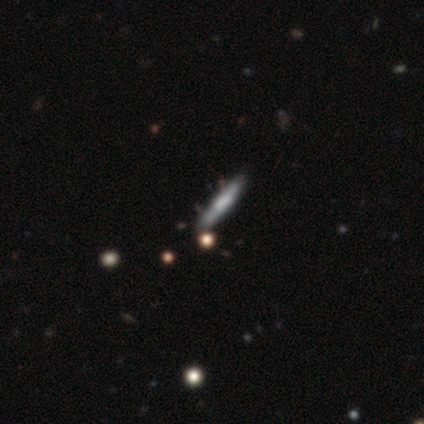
This appears to be a featured or disk galaxy (80%) viewed edge-on (100%) with a boxy central bulge (50%). Merging: none (100%).